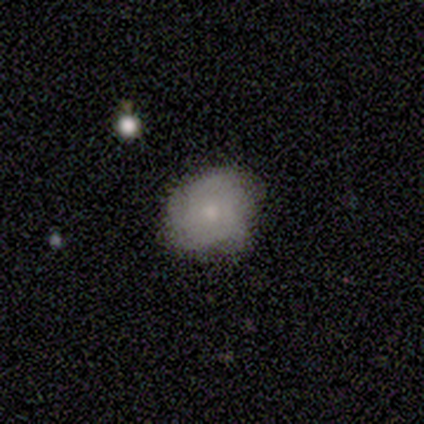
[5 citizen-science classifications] Smooth or featured: smooth — 100%
How rounded: in between — 60% (round — 40%)
Merging: minor disturbance — 40% (tied with major disturbance — 40%)